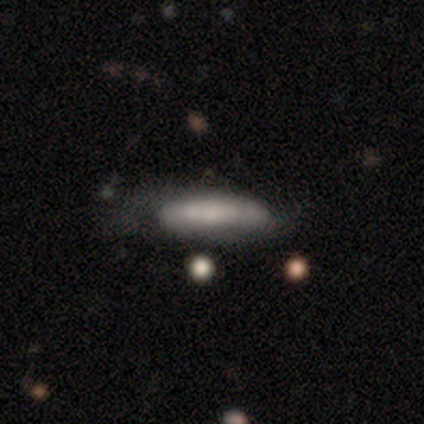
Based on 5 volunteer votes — This appears to be a smooth galaxy with no disk features (100%) that is in between round and cigar-shaped (60%). Merging: none (60%).